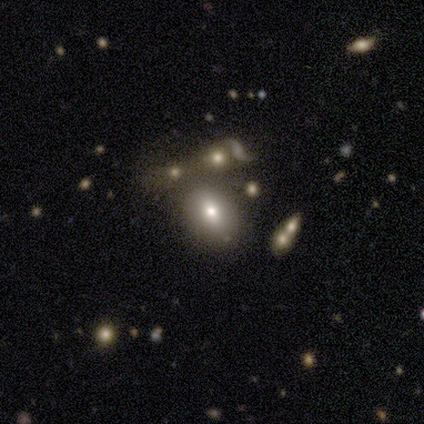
Q: Smooth or featured?
A: smooth (69%); runner-up: featured or disk (23%)
Q: How rounded?
A: in between (78%); runner-up: round (22%)
Q: Merging?
A: none (61%); runner-up: minor disturbance (19%)